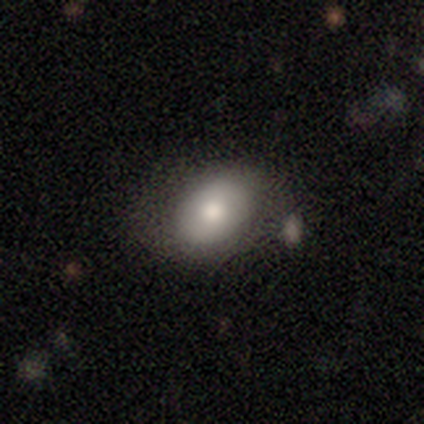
Q: Smooth or featured?
A: smooth (74%); runner-up: featured or disk (20%)
Q: How rounded?
A: in between (82%); runner-up: round (17%)
Q: Merging?
A: none (68%); runner-up: minor disturbance (20%)